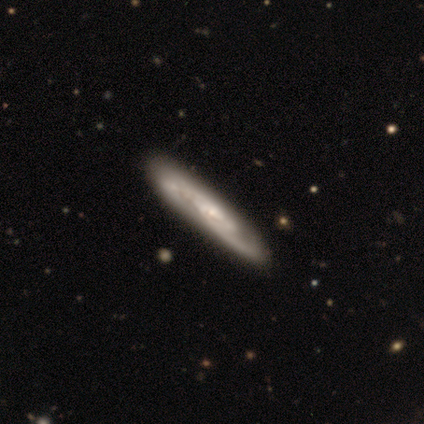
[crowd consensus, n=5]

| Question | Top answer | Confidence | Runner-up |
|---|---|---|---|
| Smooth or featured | featured or disk | 80% | smooth (20%) |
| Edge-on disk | yes | 50% | tied: no (50%) |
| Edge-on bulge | none | 50% | tied: rounded (50%) |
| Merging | none | 100% | — |